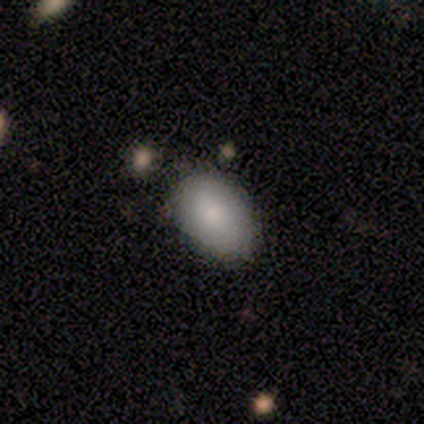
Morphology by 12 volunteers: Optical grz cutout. It shows a smooth galaxy with no disk features (75%) that is in between round and cigar-shaped (89%). Merging: none (100%).